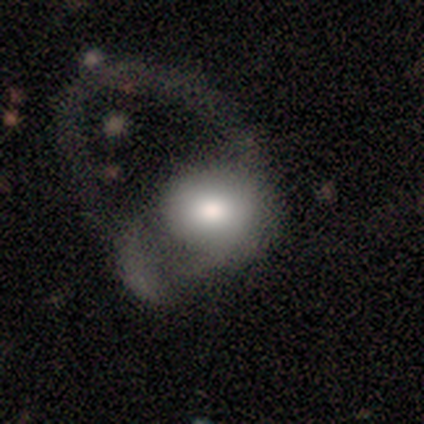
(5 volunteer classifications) Smooth or featured: smooth — 60% (featured or disk — 40%)
How rounded: in between — 67% (round — 33%)
Merging: major disturbance — 80% (merger — 20%)